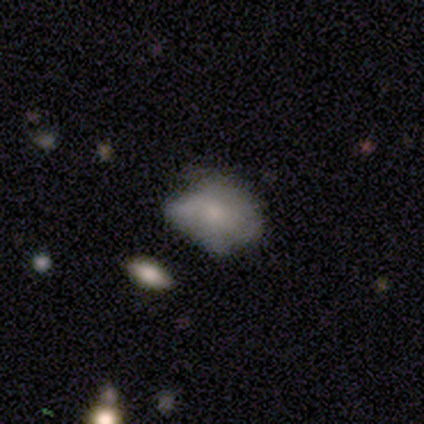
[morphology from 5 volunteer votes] smooth 80%, featured or disk 20%, star or artifact 0%. Down the decision tree: how rounded — in between (75%); merging — none (40%, tied with minor disturbance).